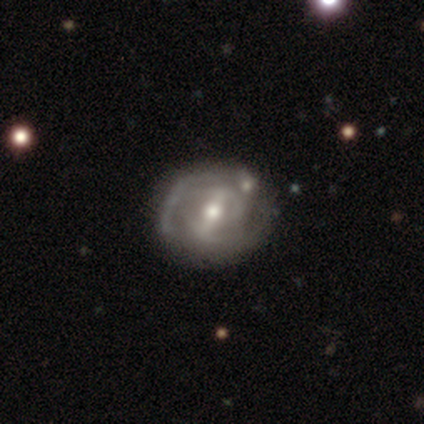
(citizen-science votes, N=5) Overall: featured or disk (80%). Edge-on disk: no (75%). Bar: no (67%; strong 33%). Spiral arms: yes (67%; no 33%). Spiral arm count: 2 (50%, tied with can't tell). Spiral winding: medium (100%). Bulge size: small (67%; moderate 33%). Merging: none (100%).